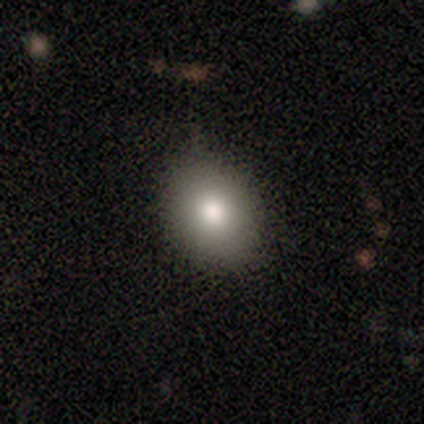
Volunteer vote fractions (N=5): Overall: smooth (60%; featured or disk 20%). How rounded: in between (67%; round 33%). Merging: none (75%).